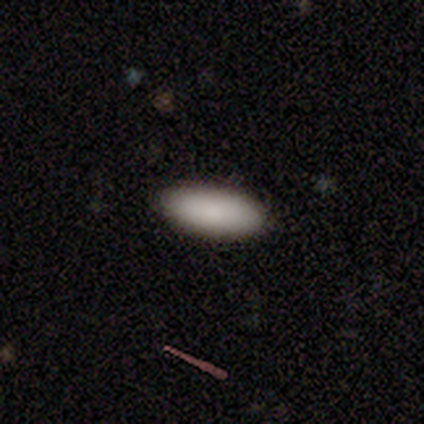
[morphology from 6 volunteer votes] smooth 100%, featured or disk 0%, star or artifact 0%. Down the decision tree: how rounded — in between (83%); merging — none (100%).